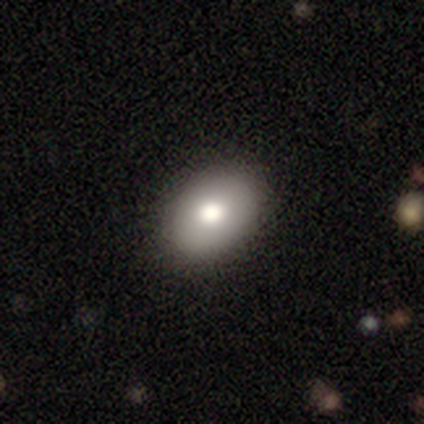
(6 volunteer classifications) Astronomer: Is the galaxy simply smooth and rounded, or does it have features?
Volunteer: smooth — 67%.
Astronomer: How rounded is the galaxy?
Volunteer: in between — 100%.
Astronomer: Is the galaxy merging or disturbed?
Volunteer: none — 100%.